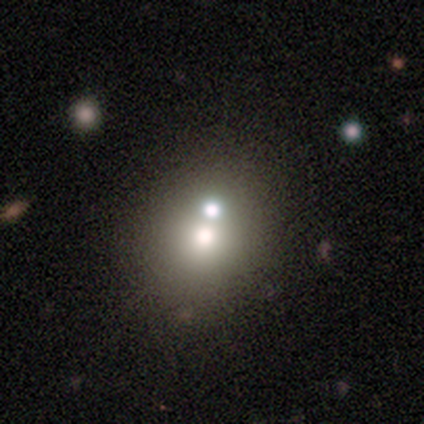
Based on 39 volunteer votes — Overall: smooth (64%). How rounded: round (76%). Merging: merger (68%).